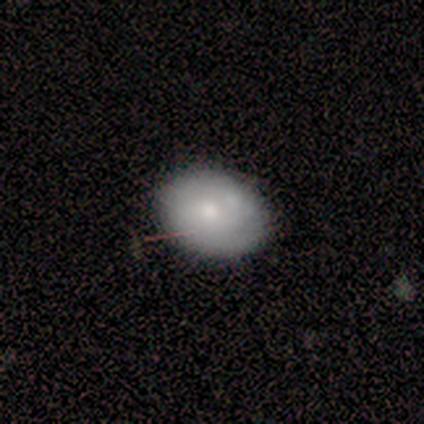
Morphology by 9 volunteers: This appears to be a smooth galaxy with no disk features (56%) that is in between round and cigar-shaped (100%). Merging: none (100%).